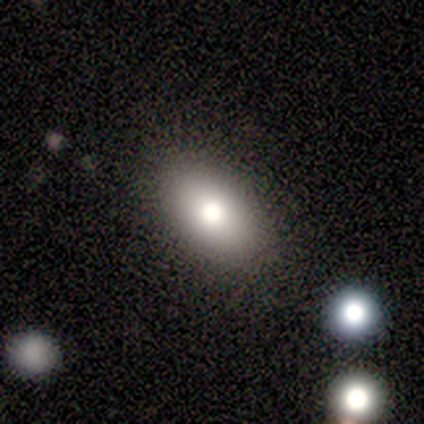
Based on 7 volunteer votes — Morphology: type=smooth (100%); roundness=in between (100%); merging=none (71%).